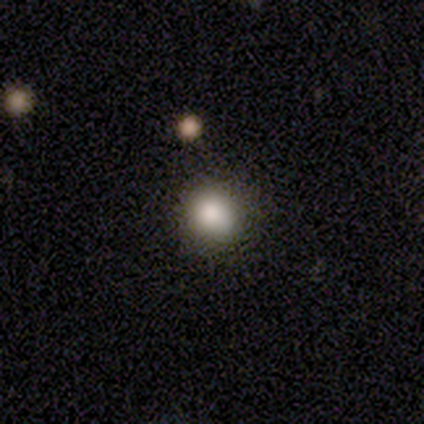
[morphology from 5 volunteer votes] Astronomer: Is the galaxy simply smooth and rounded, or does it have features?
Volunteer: smooth — 60% (runner-up: star or artifact, 40%).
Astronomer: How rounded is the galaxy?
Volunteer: round — 100%.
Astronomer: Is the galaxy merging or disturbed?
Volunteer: none — 100%.